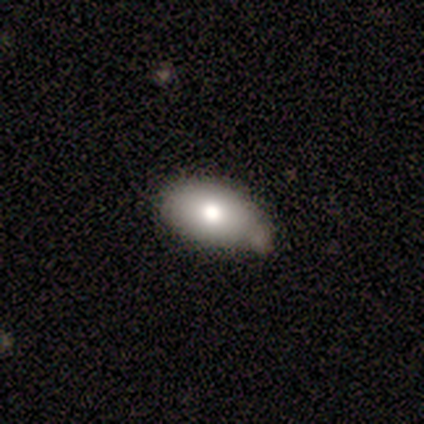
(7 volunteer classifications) Smooth or featured: smooth — 71% (featured or disk — 29%)
How rounded: in between — 100%
Merging: none — 57% (minor disturbance — 14%)